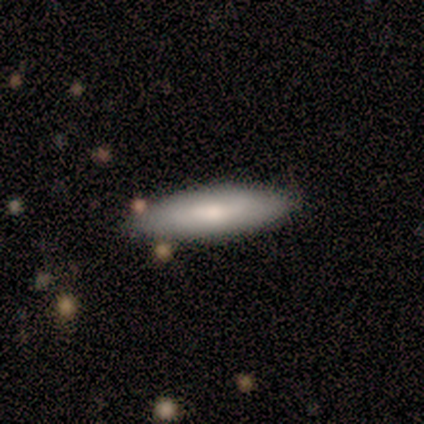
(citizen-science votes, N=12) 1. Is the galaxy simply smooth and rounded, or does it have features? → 67% smooth, 33% featured or disk, 0% star or artifact.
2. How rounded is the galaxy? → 75% cigar-shaped, 25% in between, 0% round.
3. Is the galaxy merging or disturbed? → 92% none, 8% minor disturbance, 0% major disturbance, 0% merger.